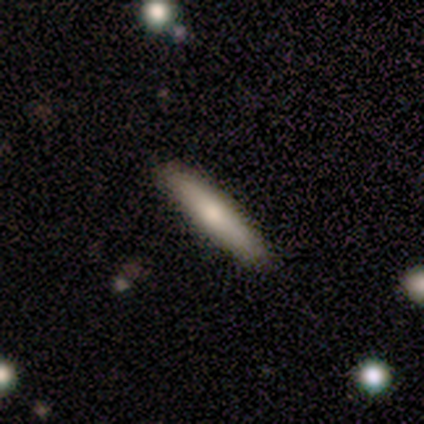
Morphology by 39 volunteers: type=smooth (82%); roundness=cigar-shaped (94%); merging=none (89%).